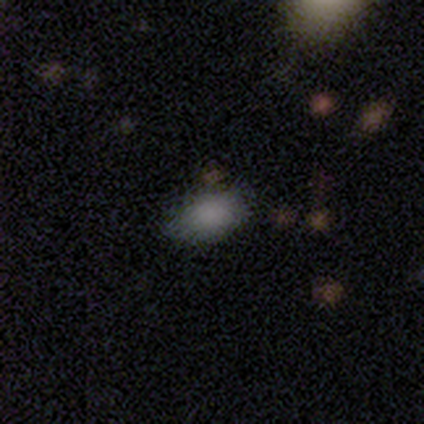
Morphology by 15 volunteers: A smooth galaxy with no disk features (100%) that is in between round and cigar-shaped (93%). Merging: none (53%).